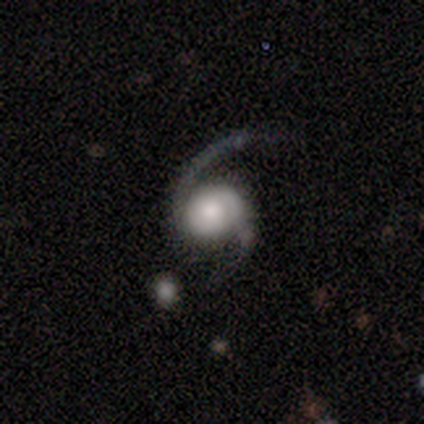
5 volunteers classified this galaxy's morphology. A featured or disk galaxy (100%) with no bar (100%), 1 (50%, tied with 2) loose (75%) spiral arms (100%) and a large central bulge (25%, tied with moderate, small and none). Merging: none (40%, tied with major disturbance).